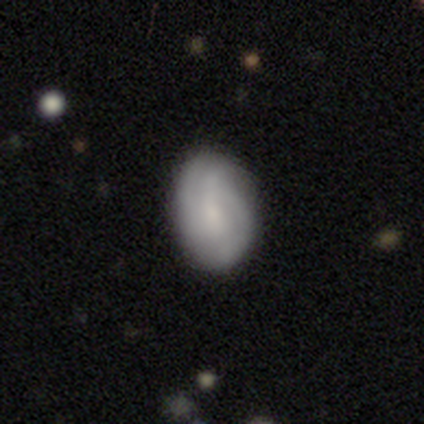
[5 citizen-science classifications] Smooth or featured: smooth — 60% (featured or disk — 40%)
How rounded: in between — 100%
Merging: none — 80% (major disturbance — 20%)